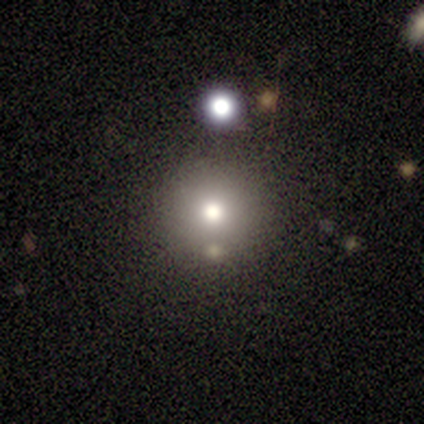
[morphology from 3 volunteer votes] Smooth or featured? 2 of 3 (67%) said star or artifact.